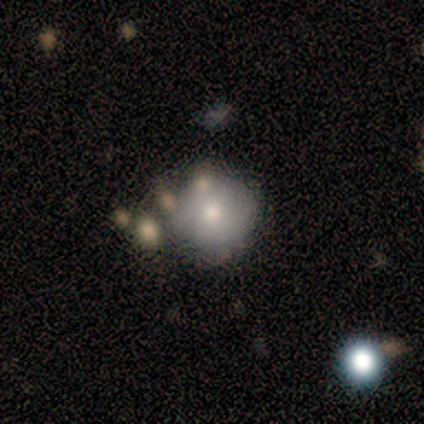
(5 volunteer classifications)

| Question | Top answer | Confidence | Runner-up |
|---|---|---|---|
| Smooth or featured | smooth | 100% | — |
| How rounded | round | 100% | — |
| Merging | merger | 60% | none (40%) |